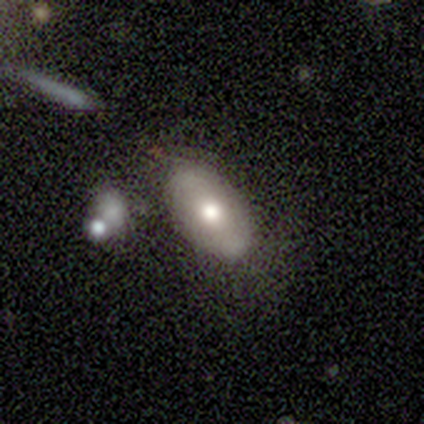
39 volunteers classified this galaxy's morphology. smooth_or_featured: smooth (p=0.56) [alt: featured or disk p=0.41]
how_rounded: in between (p=0.95) [alt: round p=0.05]
merging: none (p=0.68) [alt: minor disturbance p=0.18]